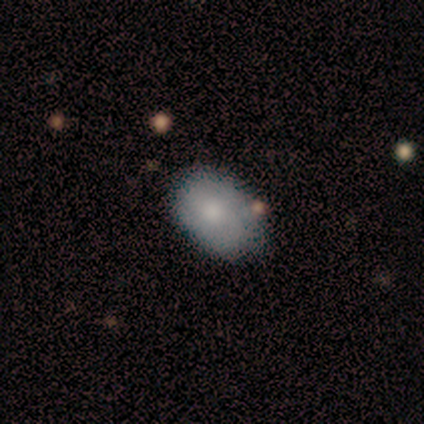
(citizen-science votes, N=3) Morphology: type=smooth (67%); roundness=in between (100%); merging=none (50%, tied with minor disturbance).